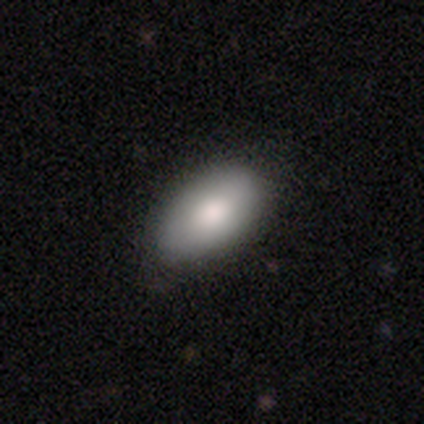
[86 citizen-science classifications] Smooth or featured?
  - smooth: 83% *
  - featured or disk: 13%
  - star or artifact: 5%
How rounded?
  - in between: 92% *
  - round: 6%
  - cigar-shaped: 3%
Merging?
  - none: 85% *
  - minor disturbance: 12%
  - major disturbance: 1%
  - merger: 1%